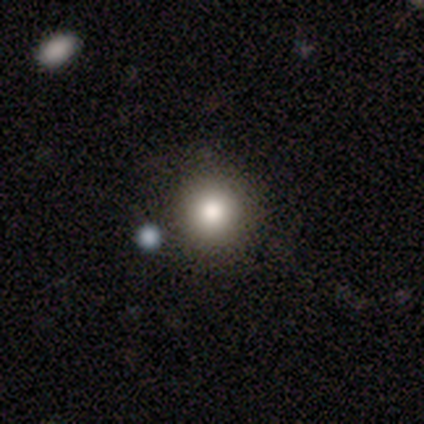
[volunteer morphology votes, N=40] smooth 65%, featured or disk 18%, star or artifact 18%. Down the decision tree: how rounded — round (96%); merging — none (88%).